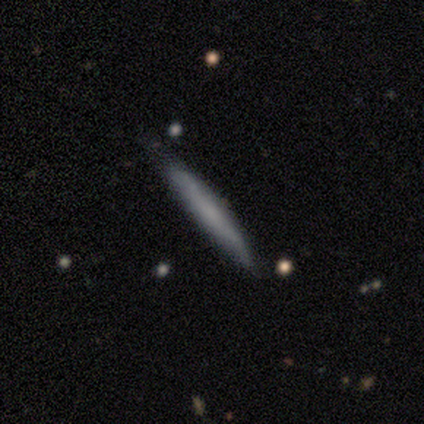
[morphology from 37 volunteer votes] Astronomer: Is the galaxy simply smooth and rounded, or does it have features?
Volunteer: smooth — 62%.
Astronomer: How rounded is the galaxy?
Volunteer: cigar-shaped — 100%.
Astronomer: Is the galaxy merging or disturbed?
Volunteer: none — 74%.